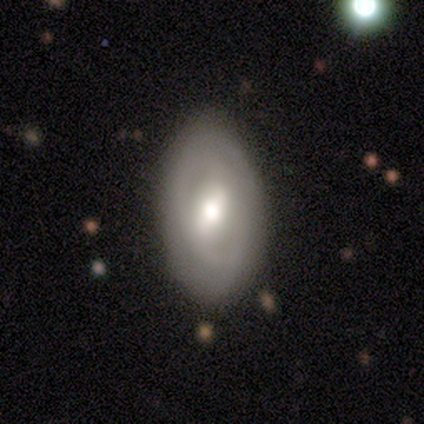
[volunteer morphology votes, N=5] Volunteers were most divided on "spiral arm count": 2: 50%, 3: 25%, can't tell: 25%, 1: 0%, 4: 0%, more than 4: 0%. More confident: edge-on disk — no (100%); bar — weak (100%); spiral arms — yes (100%); smooth or featured — featured or disk (80%); spiral winding — tight (75%); bulge size — moderate (75%); merging — none (60%).